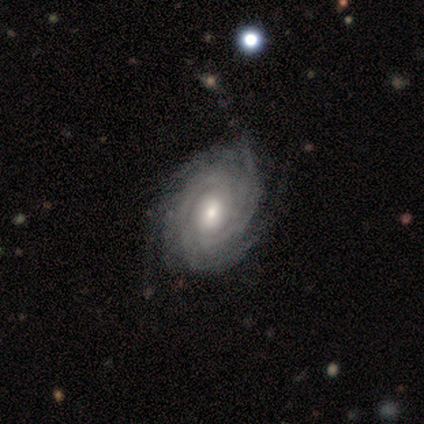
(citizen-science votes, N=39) Volunteers were most divided on "spiral arm count": more than 4: 34%, 4: 24%, can't tell: 21%, 3: 18%, 2: 3%, 1: 0%. Remaining: smooth or featured — featured or disk (100%); edge-on disk — no (100%); spiral arms — yes (97%); spiral winding — tight (92%); bulge size — moderate (67%); bar — no (64%); merging — none (49%).